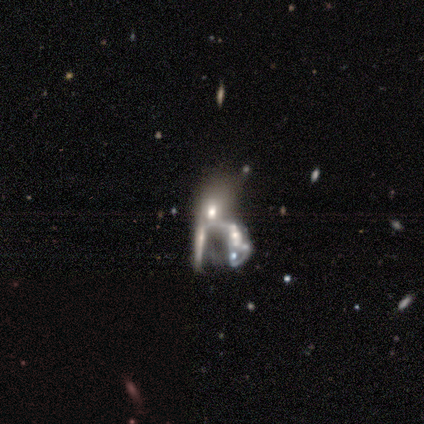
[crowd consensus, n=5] This appears to be a featured or disk galaxy (100%) with no bar (80%), no spiral arms (100%) and a moderate central bulge (40%). Merging: merger (60%).